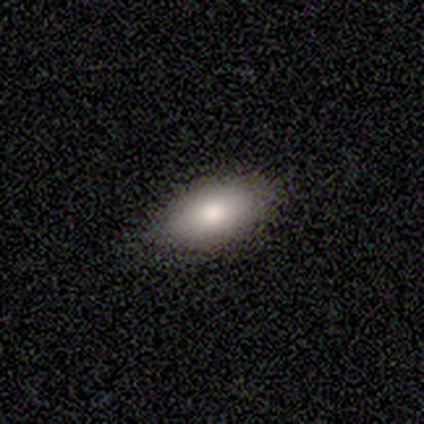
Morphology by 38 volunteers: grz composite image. It shows a smooth galaxy with no disk features (74%) that is in between round and cigar-shaped (96%). Merging: none (69%).